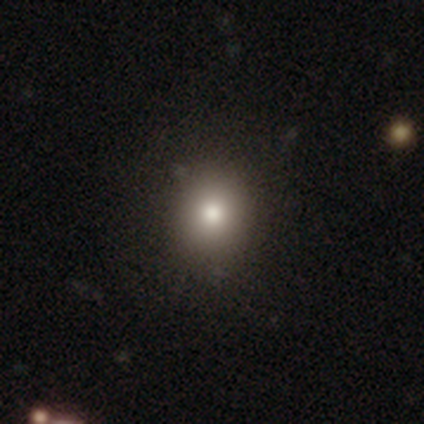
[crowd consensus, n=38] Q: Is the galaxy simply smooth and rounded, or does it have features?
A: smooth — 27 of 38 (71%).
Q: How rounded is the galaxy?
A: round — 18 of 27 (67%).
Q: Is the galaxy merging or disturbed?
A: none — 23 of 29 (79%).